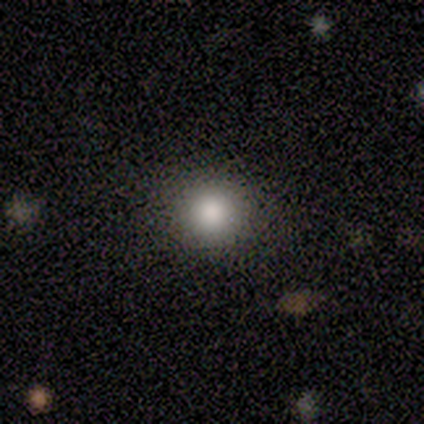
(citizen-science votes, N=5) Volunteers were most divided on "how rounded": round: 60%, in between: 40%, cigar-shaped: 0%. More confident: smooth or featured — smooth (100%); merging — none (100%).